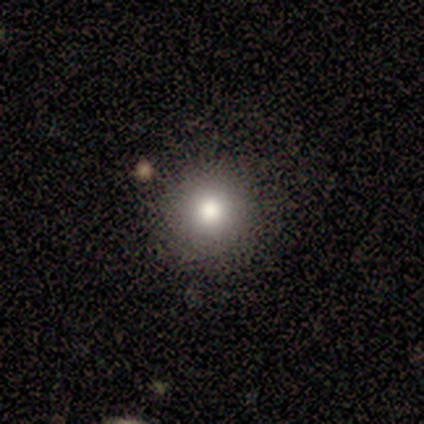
Volunteers were most divided on "smooth or featured": smooth: 60%, featured or disk: 20%, star or artifact: 20%. More confident: how rounded — round (100%); merging — none (100%).